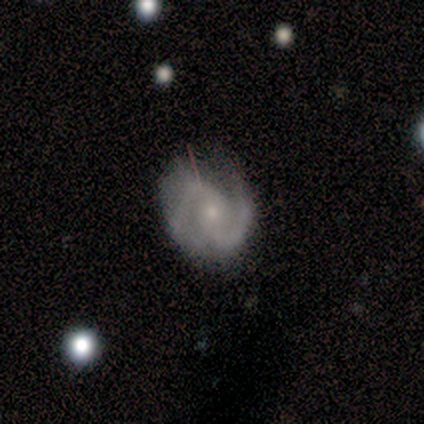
Smooth or featured? featured or disk (82%)
Edge-on disk? no (97%)
Bar? weak (52%)
Spiral arms? yes (94%)
Spiral winding? medium (55%)
Spiral arm count? 2 (97%)
Bulge size? small (77%)
Merging? none (56%)